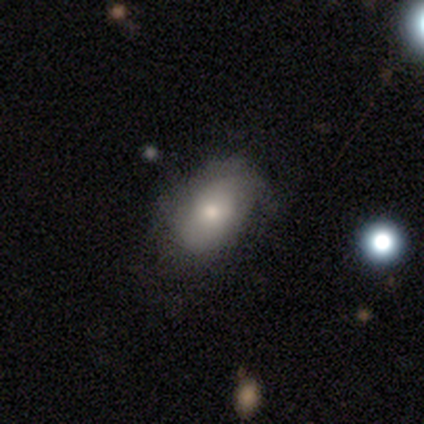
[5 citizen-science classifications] smooth-or-featured: smooth: 80% | featured or disk: 20% | star or artifact: 0%
  how-rounded: in between: 100% | round: 0% | cigar-shaped: 0%
  merging: none: 60% | major disturbance: 40% | minor disturbance: 0% | merger: 0%